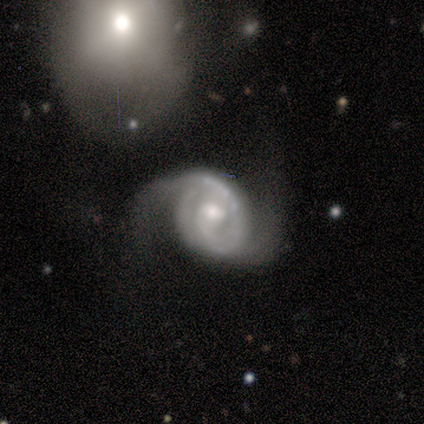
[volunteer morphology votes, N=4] This appears to be a featured or disk galaxy (100%) with a weak bar (67%), 1 (67%) tight (67%) spiral arms (100%) and a moderate central bulge (67%). Merging: minor disturbance (75%).